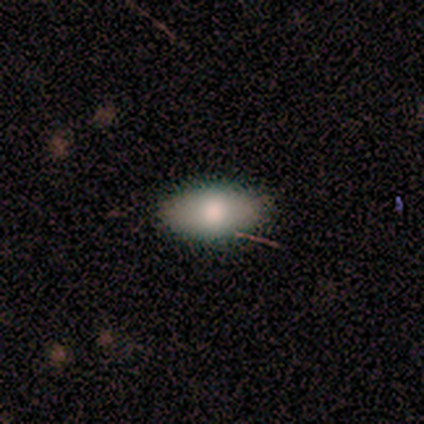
Smooth or featured? 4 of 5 (80%) said smooth. How rounded? 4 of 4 (100%) said in between. Merging? 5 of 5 (100%) said none.